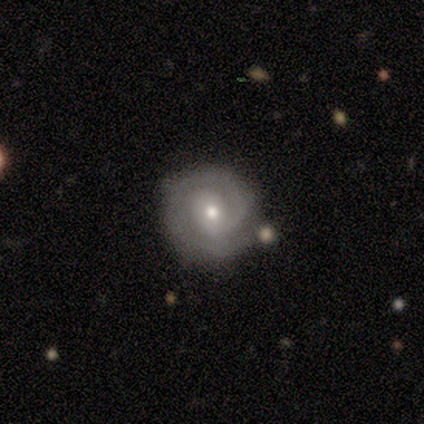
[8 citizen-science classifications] Smooth or featured: featured or disk — 75% (smooth — 25%)
Edge-on disk: no — 100%
Bar: weak — 50% (no — 33%)
Spiral arms: yes — 100%
Spiral winding: tight — 67% (medium — 33%)
Spiral arm count: 2 — 67% (1 — 17%)
Bulge size: moderate — 67% (dominant — 17%)
Merging: none — 62% (minor disturbance — 25%)